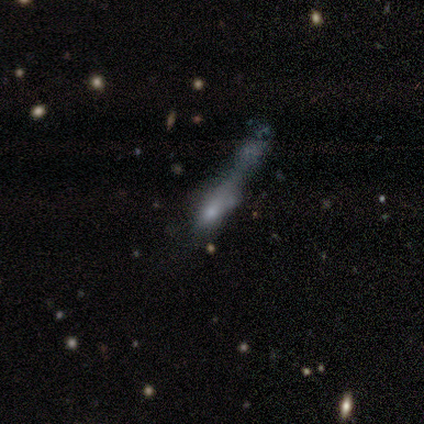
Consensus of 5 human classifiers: Smooth or featured? smooth (60%)
How rounded? cigar-shaped (67%)
Merging? merger (60%)